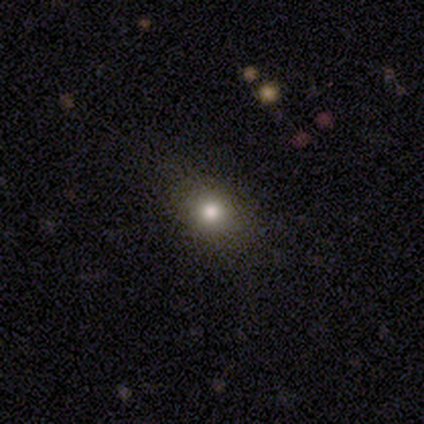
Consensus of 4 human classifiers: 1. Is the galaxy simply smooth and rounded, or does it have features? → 50% smooth (tied), 50% star or artifact (tied), 0% featured or disk.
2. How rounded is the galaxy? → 50% round (tied), 50% in between (tied), 0% cigar-shaped.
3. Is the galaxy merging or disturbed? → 100% none, 0% minor disturbance, 0% major disturbance, 0% merger.